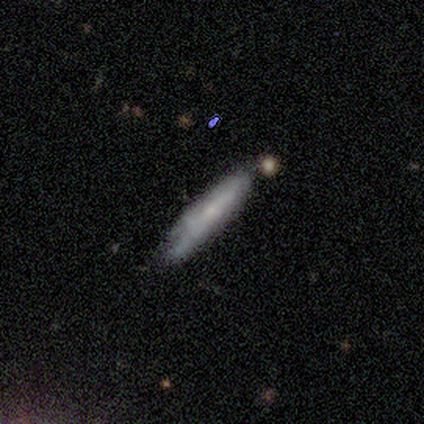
smooth_or_featured: smooth (p=0.49) [alt: featured or disk p=0.38]
how_rounded: cigar-shaped (p=0.84) [alt: in between p=0.11]
merging: none (p=0.71) [alt: minor disturbance p=0.21]